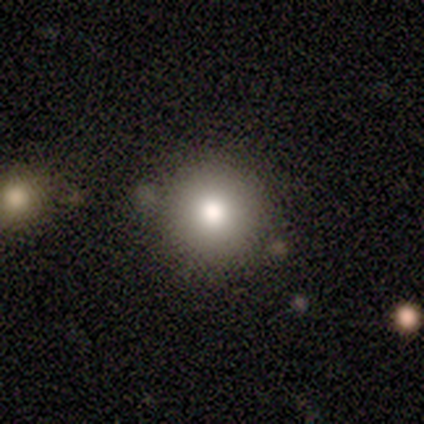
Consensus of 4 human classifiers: A smooth galaxy with no disk features (100%) that is round (100%). Merging: none (100%).